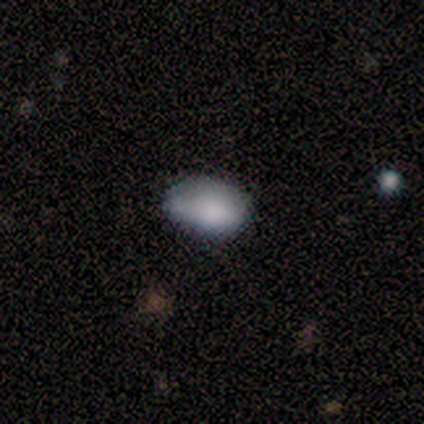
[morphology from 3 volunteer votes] This appears to be a smooth galaxy with no disk features (67%) that is in between round and cigar-shaped (100%). Merging: minor disturbance (67%).